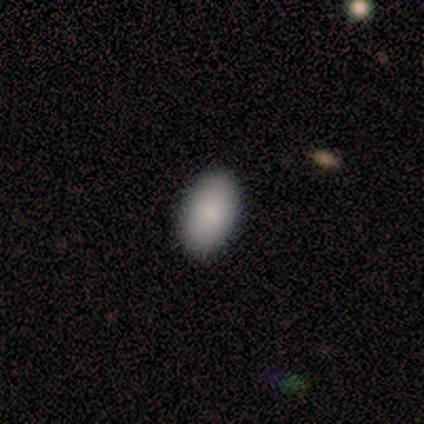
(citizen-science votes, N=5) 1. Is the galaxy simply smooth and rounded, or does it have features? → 100% smooth, 0% featured or disk, 0% star or artifact.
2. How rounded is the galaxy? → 100% in between, 0% round, 0% cigar-shaped.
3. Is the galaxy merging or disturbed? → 100% none, 0% minor disturbance, 0% major disturbance, 0% merger.